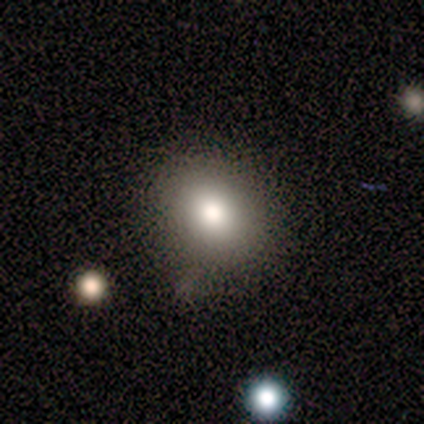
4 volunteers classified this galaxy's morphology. Smooth or featured?
  - smooth: 75% *
  - featured or disk: 25%
  - star or artifact: 0%
How rounded?
  - round: 67% *
  - in between: 33%
  - cigar-shaped: 0%
Merging?
  - minor disturbance: 50% *
  - none: 25%
  - merger: 25%
  - major disturbance: 0%